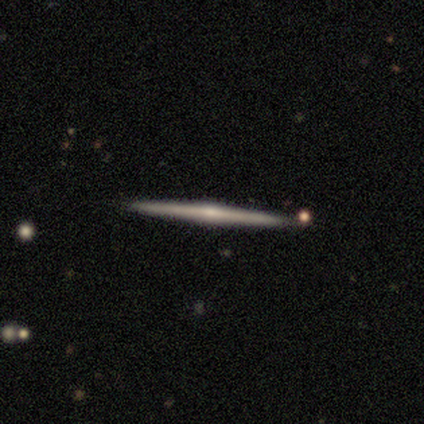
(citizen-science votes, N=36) Q: Smooth or featured?
A: featured or disk (75%); runner-up: smooth (14%)
Q: Edge-on disk?
A: yes (100%)
Q: Edge-on bulge?
A: rounded (85%); runner-up: none (11%)
Q: Merging?
A: none (94%); runner-up: minor disturbance (6%)